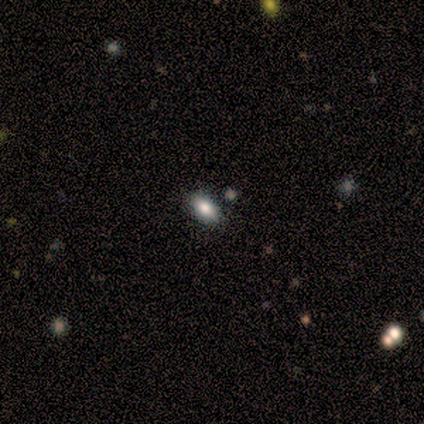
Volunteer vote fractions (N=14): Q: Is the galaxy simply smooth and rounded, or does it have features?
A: smooth — 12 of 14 (86%).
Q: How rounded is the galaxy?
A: in between — 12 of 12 (100%).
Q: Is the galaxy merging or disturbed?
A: none — 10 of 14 (71%).